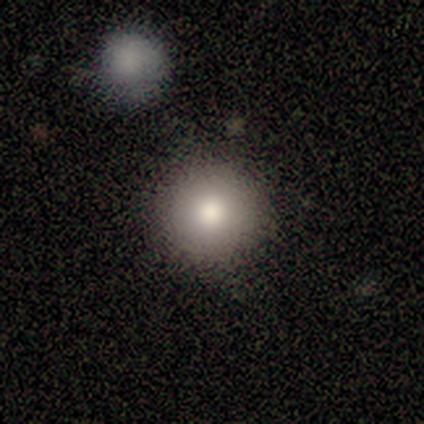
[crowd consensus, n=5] smooth-or-featured: smooth: 60% | featured or disk: 20% | star or artifact: 20%
  how-rounded: round: 100% | in between: 0% | cigar-shaped: 0%
  merging: none: 100% | minor disturbance: 0% | major disturbance: 0% | merger: 0%